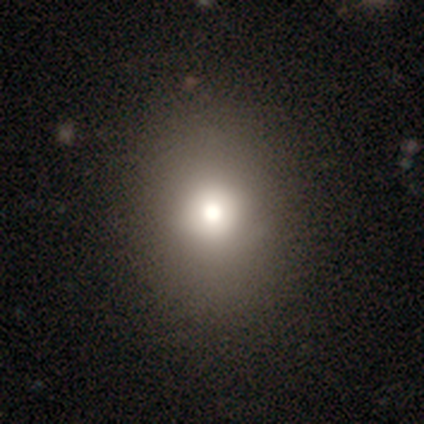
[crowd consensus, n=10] Smooth or featured: smooth — 70% (featured or disk — 20%)
How rounded: round — 57% (in between — 43%)
Merging: none — 67% (minor disturbance — 33%)